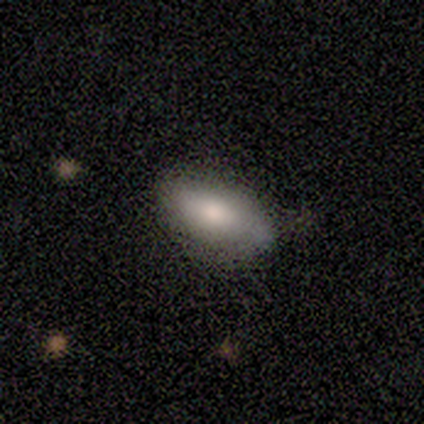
Smooth or featured: smooth — 100%
How rounded: in between — 100%
Merging: none — 80% (minor disturbance — 20%)